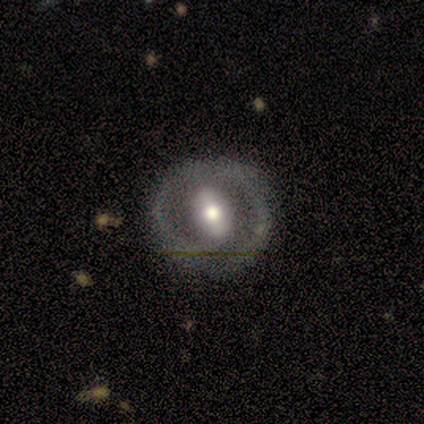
Overall: featured or disk (80%). Edge-on disk: yes (50%, tied with no). Edge-on bulge: none (50%, tied with rounded). Merging: none (75%).